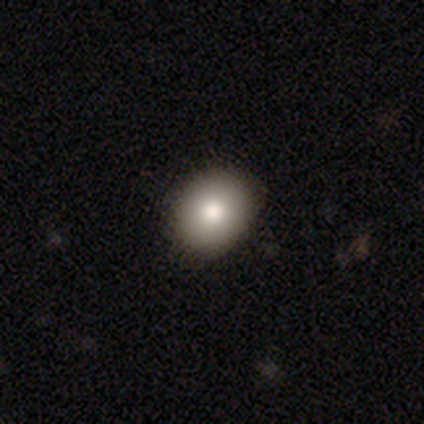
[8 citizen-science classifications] This appears to be a smooth galaxy with no disk features (88%) that is in between round and cigar-shaped (86%). Merging: none (88%).